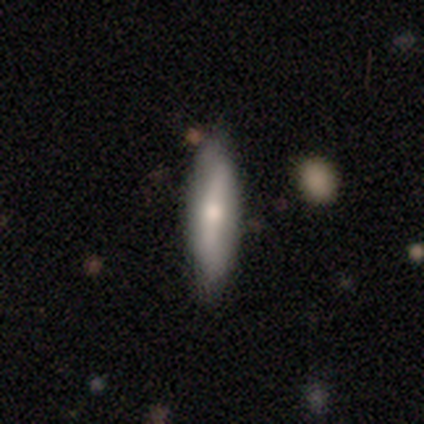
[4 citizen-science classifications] Smooth or featured?
  - featured or disk: 75% *
  - smooth: 25%
  - star or artifact: 0%
Edge-on disk?
  - no: 67% *
  - yes: 33%
Bar?
  - strong: 100% *
  - weak: 0%
  - no: 0%
Spiral arms?
  - yes: 50% * (tied)
  - no: 50% * (tied)
Spiral winding?
  - tight: 100% *
  - medium: 0%
  - loose: 0%
Spiral arm count?
  - can't tell: 100% *
  - 1: 0%
  - 2: 0%
  - 3: 0%
  - 4: 0%
  - more than 4: 0%
Bulge size?
  - moderate: 100% *
  - dominant: 0%
  - large: 0%
  - small: 0%
  - none: 0%
Merging?
  - none: 50% * (tied)
  - minor disturbance: 50% * (tied)
  - major disturbance: 0%
  - merger: 0%